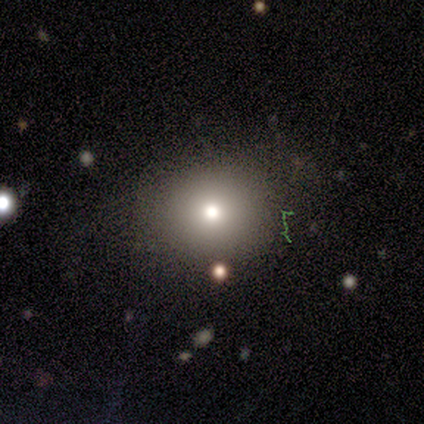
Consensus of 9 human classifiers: A smooth galaxy with no disk features (78%) that is round (86%). Merging: none (43%, tied with minor disturbance).